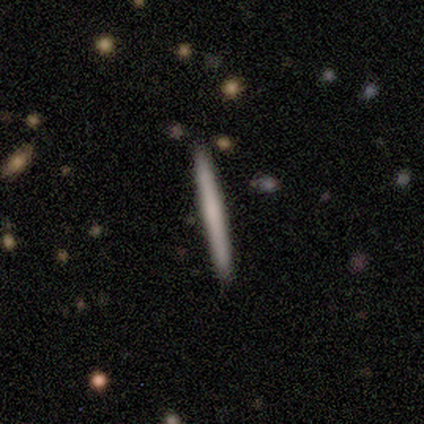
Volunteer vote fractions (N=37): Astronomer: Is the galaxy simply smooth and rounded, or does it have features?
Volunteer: smooth — 54% (runner-up: featured or disk, 35%).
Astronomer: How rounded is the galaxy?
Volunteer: cigar-shaped — 100%.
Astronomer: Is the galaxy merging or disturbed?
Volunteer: none — 97%.